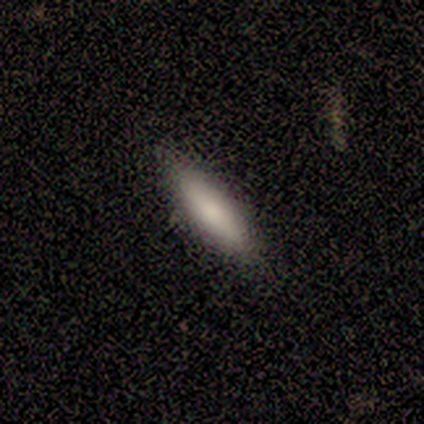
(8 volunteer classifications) A smooth galaxy with no disk features (88%) that is cigar-shaped (86%). Merging: none (100%).